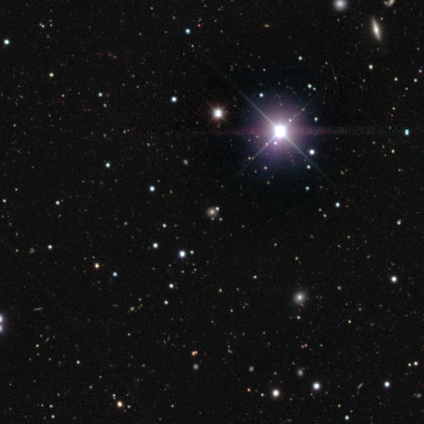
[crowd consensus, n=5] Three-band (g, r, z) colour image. It shows a star or artifact, not a galaxy (100%).